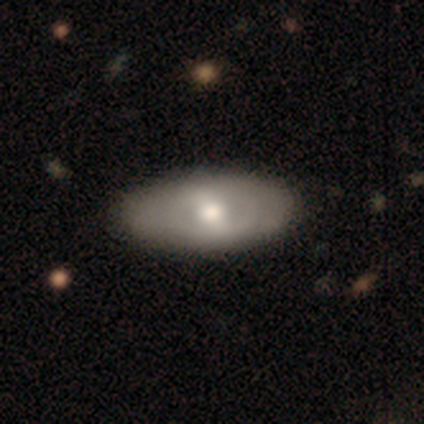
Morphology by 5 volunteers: This appears to be a featured or disk galaxy (100%) with a weak bar (60%), no spiral arms (80%) and a moderate central bulge (100%). Merging: none (100%).